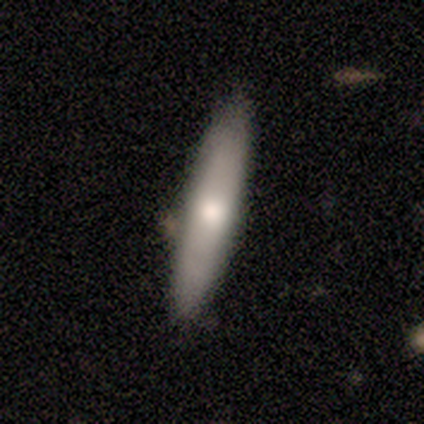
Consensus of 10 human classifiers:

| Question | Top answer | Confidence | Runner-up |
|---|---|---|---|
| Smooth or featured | smooth | 60% | featured or disk (20%) |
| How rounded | cigar-shaped | 83% | in between (17%) |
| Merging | none | 62% | minor disturbance (25%) |